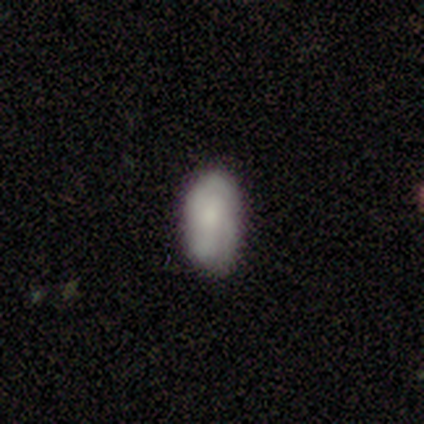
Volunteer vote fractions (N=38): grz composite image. It shows a smooth galaxy with no disk features (53%) that is in between round and cigar-shaped (85%). Merging: none (74%).